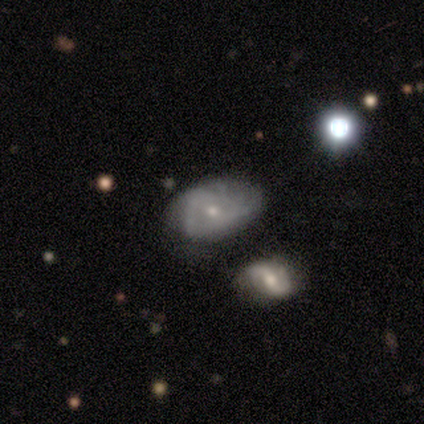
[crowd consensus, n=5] smooth_or_featured: featured or disk (p=0.80) [alt: smooth p=0.20]
disk_edge_on: no (p=0.75) [alt: yes p=0.25]
bar: no (p=1.00)
has_spiral_arms: yes (p=1.00)
spiral_winding: tight (p=0.67) [alt: loose p=0.33]
spiral_arm_count: can't tell (p=1.00)
bulge_size: small (p=1.00)
merging: none (p=0.60) [alt: major disturbance p=0.40]